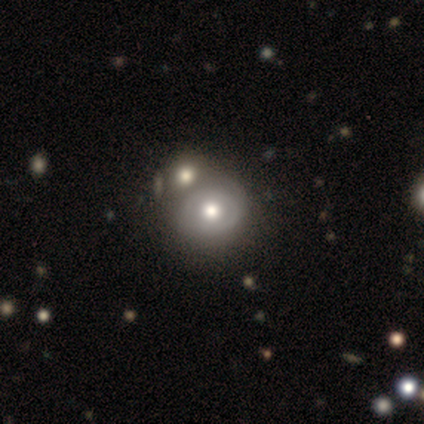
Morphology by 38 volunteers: A featured or disk galaxy (58%) with no bar (91%), no spiral arms (55%) and a moderate central bulge (64%).

Vote fractions:
- Smooth or featured? featured or disk: 58% / smooth: 37% / star or artifact: 5%
- Edge-on disk? no: 100% / yes: 0%
- Bar? no: 91% / weak: 9% / strong: 0%
- Spiral arms? no: 55% / yes: 45%
- Bulge size? moderate: 64% / large: 23% / small: 9% / dominant: 5% / none: 0%
- Merging? merger: 36% / none: 19% / major disturbance: 8% / minor disturbance: 3%